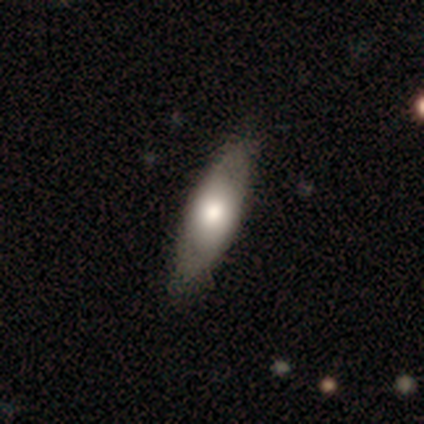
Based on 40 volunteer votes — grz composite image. It shows a smooth galaxy with no disk features (52%) that is in between round and cigar-shaped (71%). Merging: none (76%).